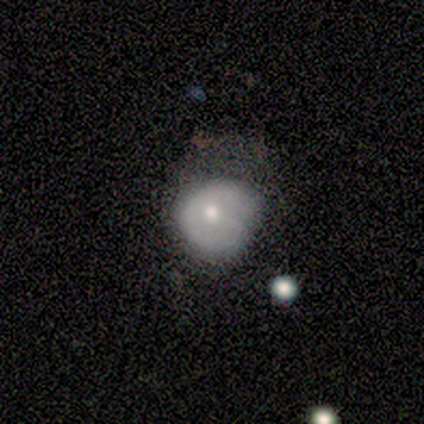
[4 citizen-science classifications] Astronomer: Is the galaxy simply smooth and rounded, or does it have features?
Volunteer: smooth — 100%.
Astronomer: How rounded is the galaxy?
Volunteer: round — 50%, tied with in between at 50%.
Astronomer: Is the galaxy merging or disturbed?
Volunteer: major disturbance — 50%.